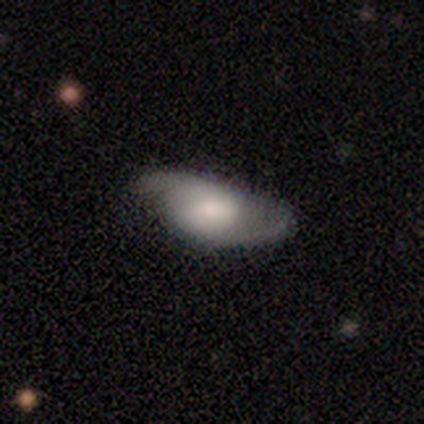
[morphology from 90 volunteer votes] This is possibly a featured or disk galaxy (54%). It is clearly not viewed edge-on (94%). Bar: possibly no (54%). Spiral arm pattern: clearly yes (93%). Spiral arm count: clearly 2 (91%). Spiral winding: likely medium (63%). Central bulge: marginally moderate (43%). Merging: possibly none (47%).